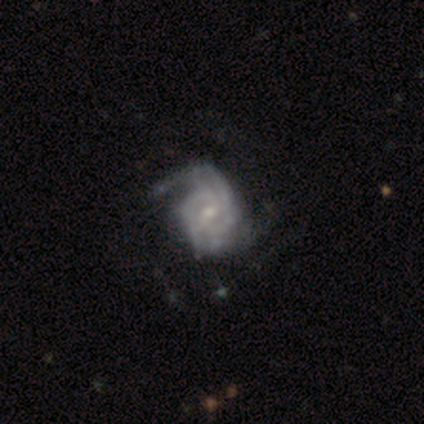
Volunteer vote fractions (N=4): A featured or disk galaxy (100%) with a weak bar (75%), 2 (100%) tight (75%) spiral arms (100%) and a small central bulge (75%).

Vote fractions:
- Smooth or featured? featured or disk: 100% / smooth: 0% / star or artifact: 0%
- Edge-on disk? no: 100% / yes: 0%
- Bar? weak: 75% / no: 25% / strong: 0%
- Spiral arms? yes: 100% / no: 0%
- Spiral winding? tight: 75% / medium: 25% / loose: 0%
- Spiral arm count? 2: 100% / 1: 0% / 3: 0% / 4: 0% / more than 4: 0% / can't tell: 0%
- Bulge size? small: 75% / moderate: 25% / dominant: 0% / large: 0% / none: 0%
- Merging? none: 75% / minor disturbance: 25% / major disturbance: 0% / merger: 0%